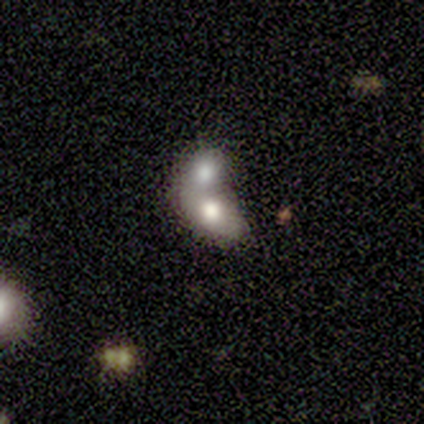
Morphology: type=smooth (80%); roundness=in between (100%); merging=merger (80%).